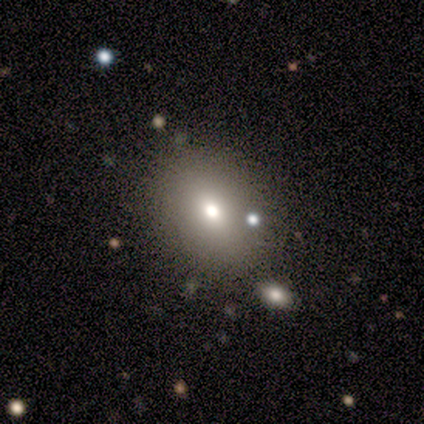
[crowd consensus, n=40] This appears to be a smooth galaxy with no disk features (60%) that is in between round and cigar-shaped (71%). Merging: none (82%).